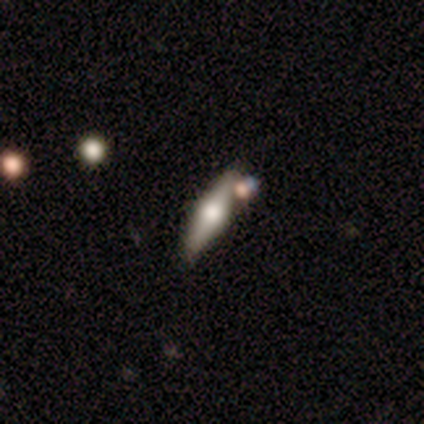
This appears to be a featured or disk galaxy (100%) viewed edge-on (100%) with a rounded central bulge (80%). Merging: none (100%).